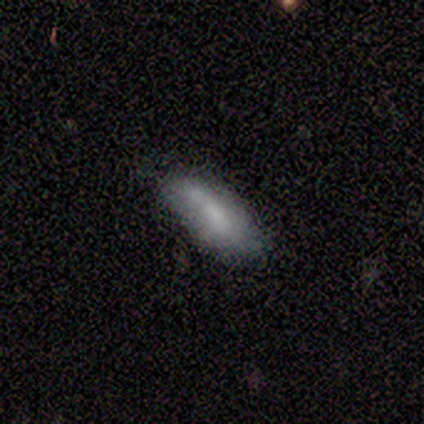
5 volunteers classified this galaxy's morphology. This is likely a smooth galaxy (60%). How rounded: clearly cigar-shaped (100%). Merging: possibly none (50%, tied with minor disturbance).